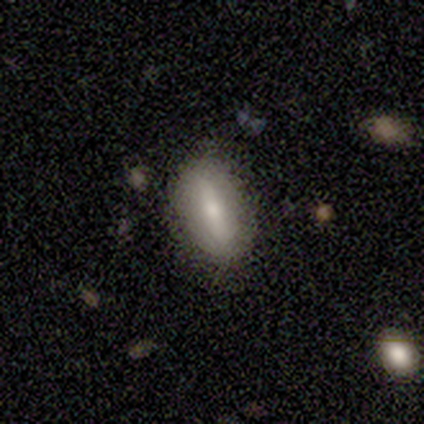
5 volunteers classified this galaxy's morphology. Smooth or featured?
  - smooth: 100% *
  - featured or disk: 0%
  - star or artifact: 0%
How rounded?
  - in between: 60% *
  - cigar-shaped: 40%
  - round: 0%
Merging?
  - none: 80% *
  - minor disturbance: 20%
  - major disturbance: 0%
  - merger: 0%